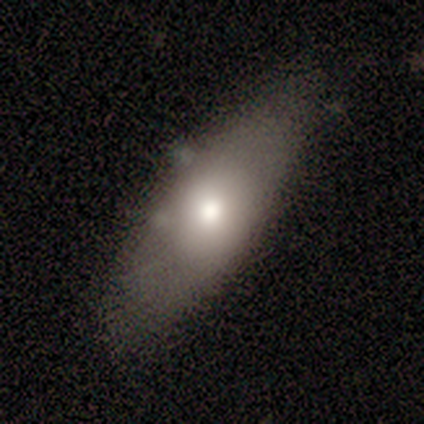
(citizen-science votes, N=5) Smooth or featured? 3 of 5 (60%) said smooth. How rounded? 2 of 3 (67%) said cigar-shaped. Merging? 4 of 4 (100%) said none.